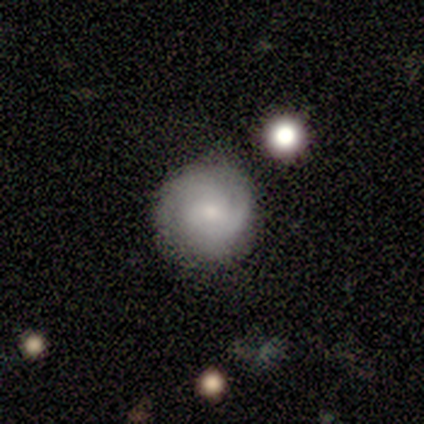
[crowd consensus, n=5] smooth-or-featured: featured or disk: 60% | smooth: 40% | star or artifact: 0%
  disk-edge-on: no: 100% | yes: 0%
    bar: no: 67% | weak: 33% | strong: 0%
    has-spiral-arms: yes: 67% | no: 33%
      spiral-winding: tight: 50% (tied) | medium: 50% (tied) | loose: 0%
      spiral-arm-count: 2: 50% (tied) | 3: 50% (tied) | 1: 0% | 4: 0% | more than 4: 0% | can't tell: 0%
    bulge-size: small: 67% | moderate: 33% | dominant: 0% | large: 0% | none: 0%
  merging: minor disturbance: 60% | none: 40% | major disturbance: 0% | merger: 0%